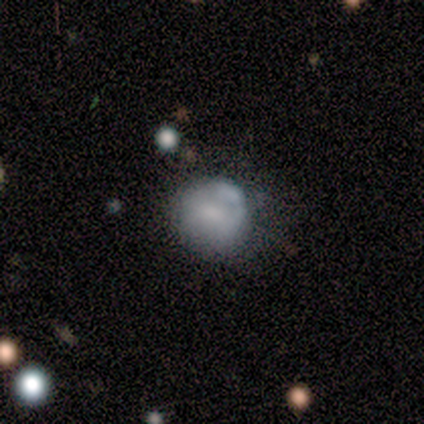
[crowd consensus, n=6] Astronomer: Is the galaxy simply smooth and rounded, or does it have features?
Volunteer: smooth — 100%.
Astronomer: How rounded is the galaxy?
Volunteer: round — 83%.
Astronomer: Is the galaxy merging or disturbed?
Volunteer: none — 50%, tied with minor disturbance at 50%.